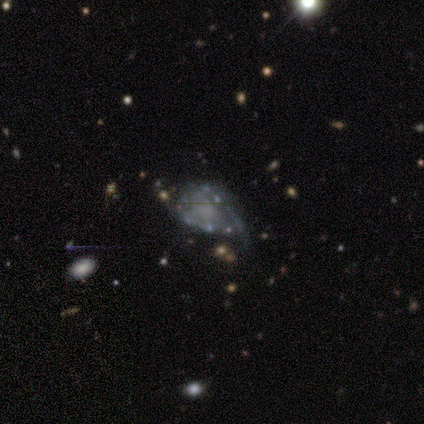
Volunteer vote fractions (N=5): This is clearly a featured or disk galaxy (80%). It is clearly not viewed edge-on (100%). Bar: likely no (75%). Spiral arm pattern: possibly yes (50%, tied with no). Spiral arm count: clearly 2 (100%). Spiral winding: possibly medium (50%, tied with loose). Central bulge: likely none (75%). Merging: possibly minor disturbance (50%).